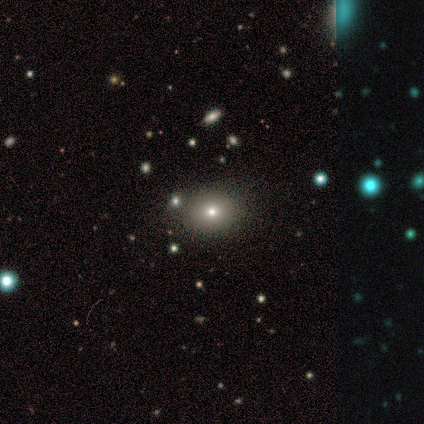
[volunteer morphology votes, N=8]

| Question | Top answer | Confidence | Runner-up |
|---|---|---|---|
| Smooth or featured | smooth | 50% | star or artifact (38%) |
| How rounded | round | 75% | in between (25%) |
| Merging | none | 100% | — |